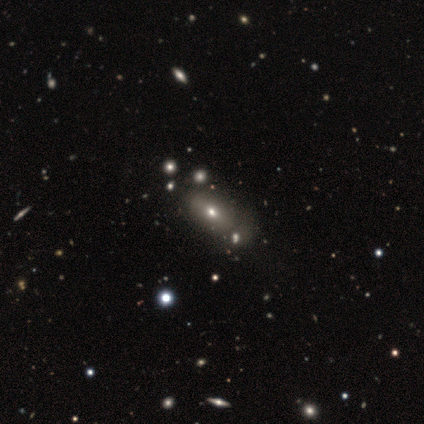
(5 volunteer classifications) This is clearly a smooth galaxy (80%). How rounded: clearly in between (100%). Merging: marginally none (40%).